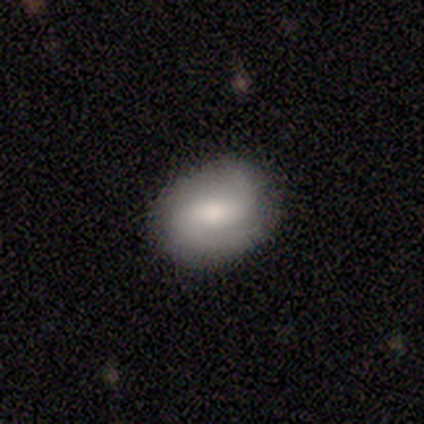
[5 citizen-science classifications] Smooth or featured?
  - smooth: 80% *
  - featured or disk: 20%
  - star or artifact: 0%
How rounded?
  - in between: 50% *
  - round: 25%
  - cigar-shaped: 25%
Merging?
  - none: 80% *
  - major disturbance: 20%
  - minor disturbance: 0%
  - merger: 0%